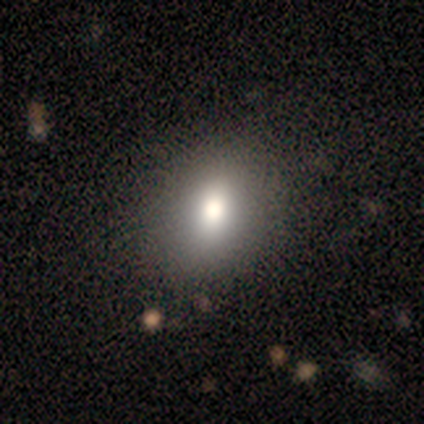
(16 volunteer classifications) Smooth or featured: smooth — 81% (featured or disk — 12%)
How rounded: in between — 54% (round — 38%)
Merging: none — 67% (minor disturbance — 33%)